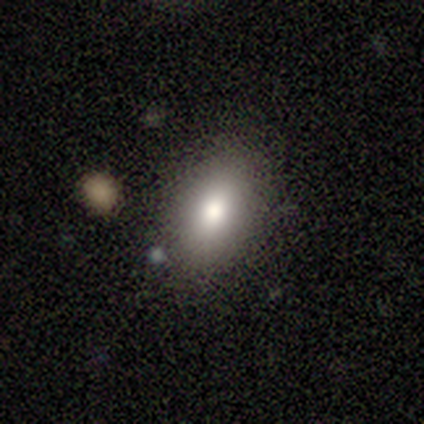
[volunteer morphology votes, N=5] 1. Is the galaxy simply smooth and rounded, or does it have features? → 80% smooth, 20% star or artifact, 0% featured or disk.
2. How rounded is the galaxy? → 75% in between, 25% round, 0% cigar-shaped.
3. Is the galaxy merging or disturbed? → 100% none, 0% minor disturbance, 0% major disturbance, 0% merger.